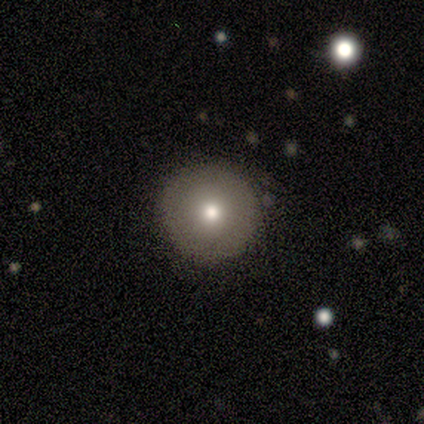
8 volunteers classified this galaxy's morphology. This is clearly a smooth galaxy (100%). How rounded: clearly round (100%). Merging: clearly none (88%).